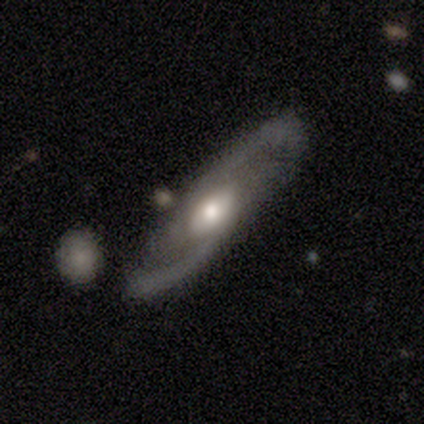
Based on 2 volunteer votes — smooth-or-featured: featured or disk: 100% | smooth: 0% | star or artifact: 0%
  disk-edge-on: yes: 50% (tied) | no: 50% (tied)
    edge-on-bulge: rounded: 100% | boxy: 0% | none: 0%
  merging: none: 50% (tied) | minor disturbance: 50% (tied) | major disturbance: 0% | merger: 0%